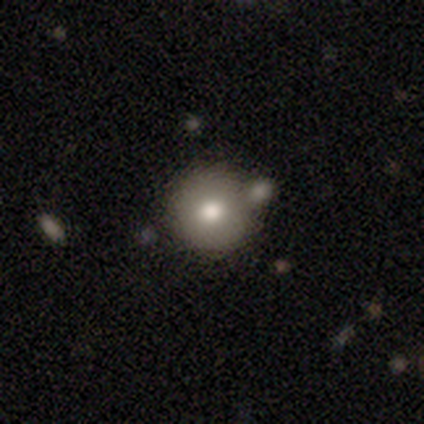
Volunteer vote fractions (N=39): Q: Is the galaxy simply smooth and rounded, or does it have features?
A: smooth — 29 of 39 (74%).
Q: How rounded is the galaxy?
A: round — 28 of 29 (97%).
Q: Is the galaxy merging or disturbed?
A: none — 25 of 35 (71%).